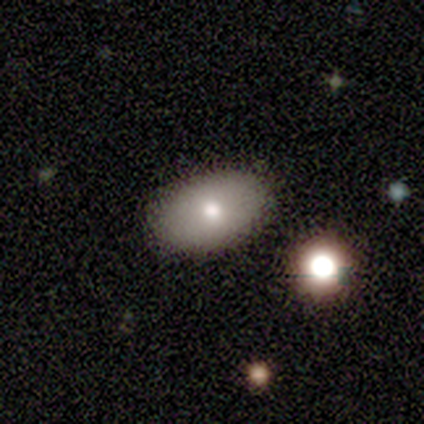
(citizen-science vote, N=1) Smooth or featured? 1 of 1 (100%) said featured or disk. Edge-on disk? 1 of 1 (100%) said no. Bar? 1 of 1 (100%) said no. Spiral arms? 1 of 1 (100%) said no. Bulge size? 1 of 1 (100%) said moderate. Merging? 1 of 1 (100%) said none.